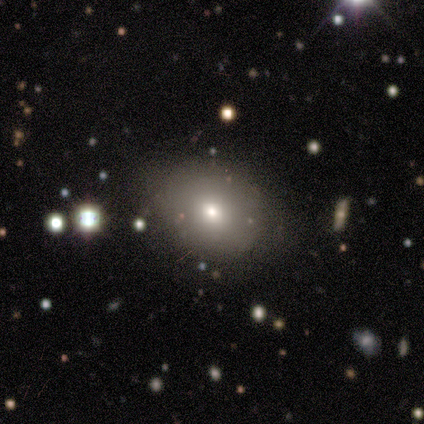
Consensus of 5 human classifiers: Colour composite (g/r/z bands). It shows a smooth galaxy with no disk features (40%, tied with star or artifact) that is round (50%, tied with in between). Merging: none (100%).